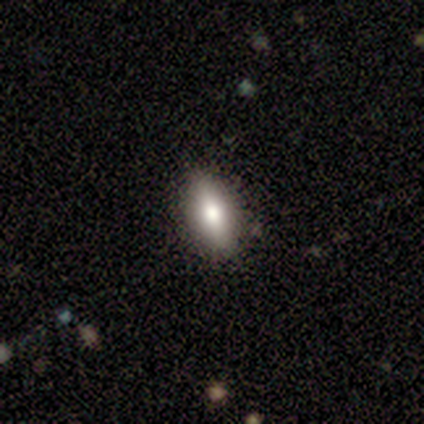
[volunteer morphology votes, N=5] smooth_or_featured: smooth (p=1.00)
how_rounded: in between (p=1.00)
merging: none (p=1.00)